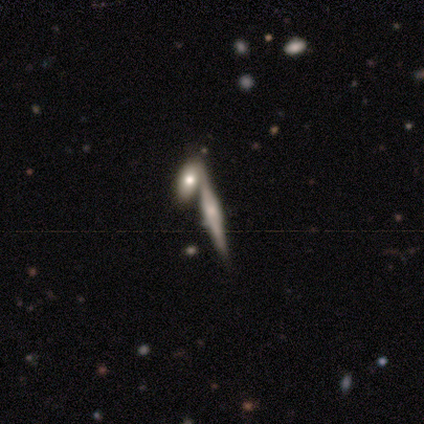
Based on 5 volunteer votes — Volunteers were most divided on "edge-on bulge": rounded: 75%, boxy: 25%, none: 0%. More confident: edge-on disk — yes (100%); smooth or featured — featured or disk (80%); merging — merger (80%).